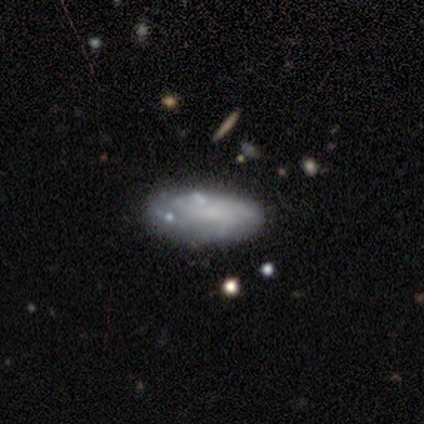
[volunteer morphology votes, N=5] Smooth or featured: featured or disk — 80% (smooth — 20%)
Edge-on disk: no — 100%
Bar: no — 100%
Spiral arms: yes — 50% (tied with no — 50%)
Spiral winding: tight — 50% (tied with loose — 50%)
Spiral arm count: can't tell — 100%
Bulge size: none — 100%
Merging: none — 80% (major disturbance — 20%)